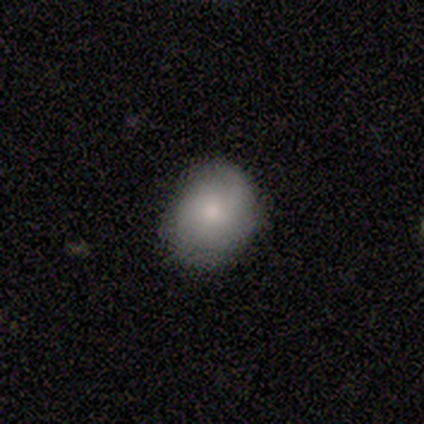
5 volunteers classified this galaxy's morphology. Smooth or featured? 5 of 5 (100%) said smooth. How rounded? 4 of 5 (80%) said round. Merging? 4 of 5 (80%) said none.